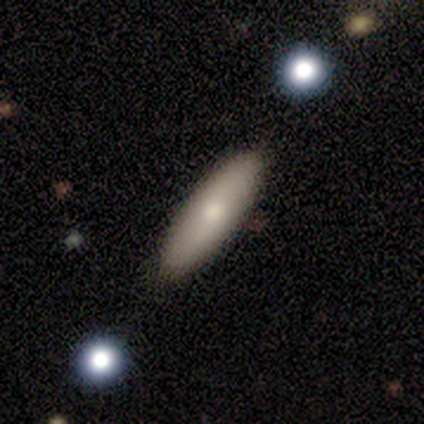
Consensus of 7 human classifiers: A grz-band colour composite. It shows a smooth galaxy with no disk features (71%) that is cigar-shaped (100%). Merging: none (71%).